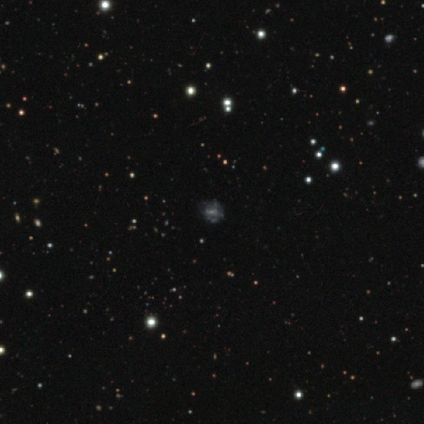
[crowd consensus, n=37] Overall: featured or disk (59%; star or artifact 24%). Edge-on disk: no (95%). Bar: no (76%). Spiral arms: no (76%). Bulge size: small (48%; none 33%). Merging: none (68%).